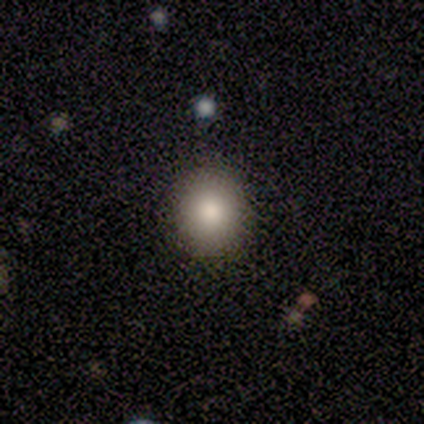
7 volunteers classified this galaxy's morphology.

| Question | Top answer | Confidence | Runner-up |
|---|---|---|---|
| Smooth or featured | smooth | 100% | — |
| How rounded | round | 100% | — |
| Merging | none | 100% | — |